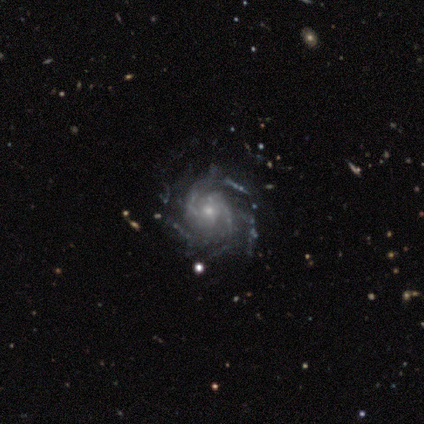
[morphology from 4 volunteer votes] This is clearly a featured or disk galaxy (100%). It is clearly not viewed edge-on (100%). Bar: likely no (75%). Spiral arm pattern: clearly yes (100%). Spiral arm count: possibly 2 (50%). Spiral winding: possibly medium (50%). Central bulge: possibly moderate (50%, tied with small). Merging: likely none (75%).